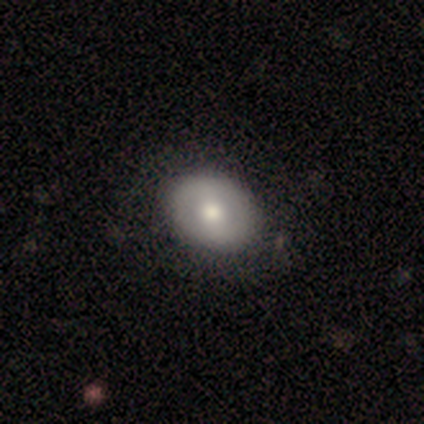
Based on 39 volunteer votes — A smooth galaxy with no disk features (67%) that is in between round and cigar-shaped (65%). Merging: none (56%).